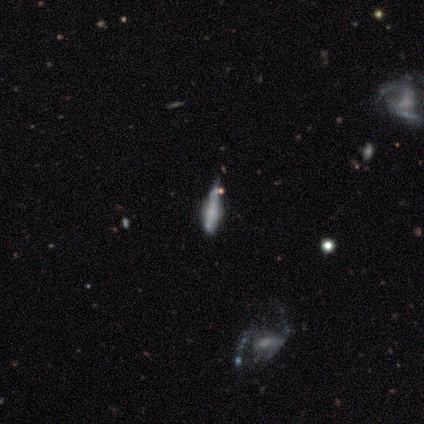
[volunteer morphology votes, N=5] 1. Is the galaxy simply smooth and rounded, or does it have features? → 60% featured or disk, 20% smooth, 20% star or artifact.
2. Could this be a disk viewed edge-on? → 67% yes, 33% no.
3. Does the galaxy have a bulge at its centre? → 50% boxy (tied), 50% rounded (tied), 0% none.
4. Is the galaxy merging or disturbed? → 75% minor disturbance, 25% merger, 0% none, 0% major disturbance.